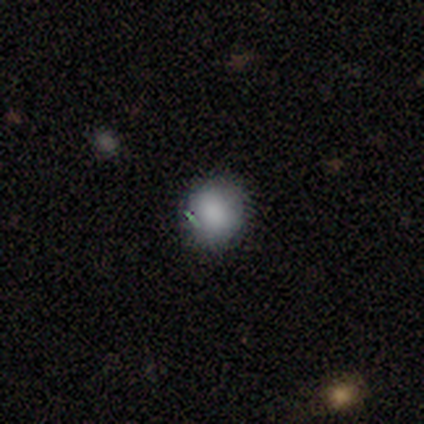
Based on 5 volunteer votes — Smooth or featured? 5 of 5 (100%) said smooth. How rounded? 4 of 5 (80%) said round. Merging? 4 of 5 (80%) said none.